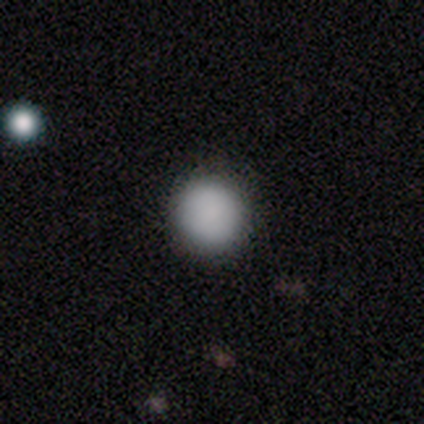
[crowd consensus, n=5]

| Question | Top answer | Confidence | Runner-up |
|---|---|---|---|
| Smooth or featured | smooth | 80% | star or artifact (20%) |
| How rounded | round | 100% | — |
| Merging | none | 100% | — |